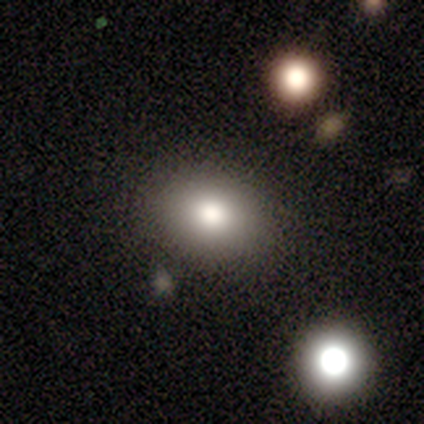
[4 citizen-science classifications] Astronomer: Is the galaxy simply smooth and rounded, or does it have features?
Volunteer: smooth — 50%, tied with star or artifact at 50%.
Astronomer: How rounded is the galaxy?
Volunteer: round — 50%, tied with in between at 50%.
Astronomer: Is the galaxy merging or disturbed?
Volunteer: none — 100%.